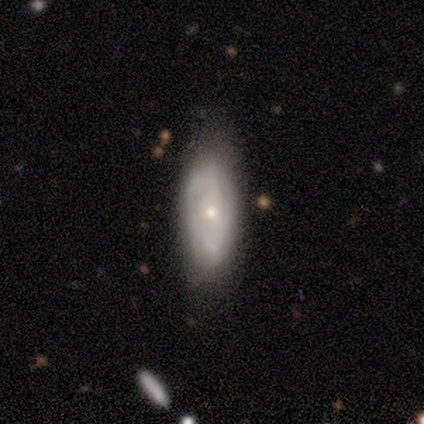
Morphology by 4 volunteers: Smooth or featured: featured or disk — 100%
Edge-on disk: no — 100%
Bar: no — 75% (weak — 25%)
Spiral arms: yes — 100%
Spiral winding: tight — 75% (medium — 25%)
Spiral arm count: can't tell — 100%
Bulge size: moderate — 50% (tied with small — 50%)
Merging: none — 100%